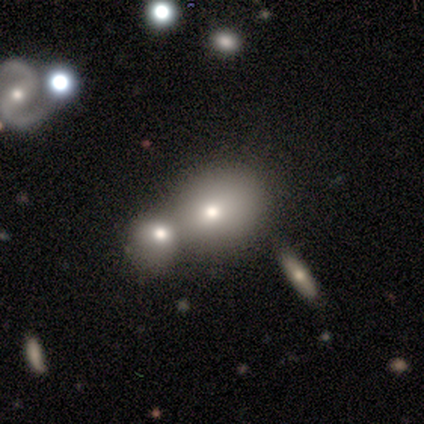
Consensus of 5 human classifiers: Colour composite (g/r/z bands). It shows a smooth galaxy with no disk features (60%) that is in between round and cigar-shaped (67%). Merging: merger (75%).